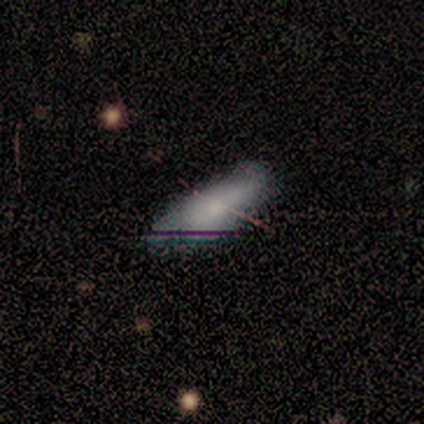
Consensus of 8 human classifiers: A smooth galaxy with no disk features (62%) that is in between round and cigar-shaped (60%).

Vote fractions:
- Smooth or featured? smooth: 62% / star or artifact: 38% / featured or disk: 0%
- How rounded? in between: 60% / cigar-shaped: 40% / round: 0%
- Merging? none: 80% / minor disturbance: 20% / major disturbance: 0% / merger: 0%